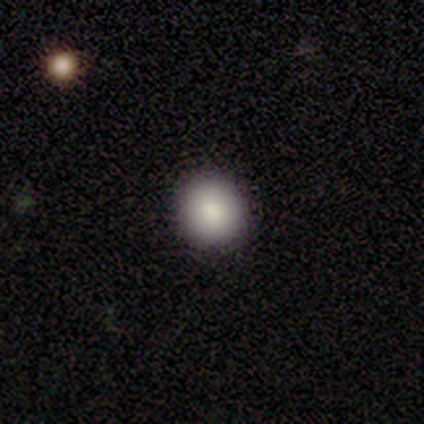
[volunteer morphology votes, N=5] Smooth or featured? 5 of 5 (100%) said smooth. How rounded? 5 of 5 (100%) said round. Merging? 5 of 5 (100%) said none.